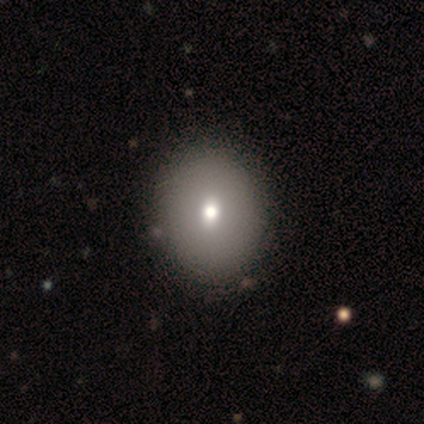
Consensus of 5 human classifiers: smooth-or-featured: smooth: 60% | featured or disk: 40% | star or artifact: 0%
  how-rounded: in between: 100% | round: 0% | cigar-shaped: 0%
  merging: none: 60% | minor disturbance: 20% | merger: 20% | major disturbance: 0%